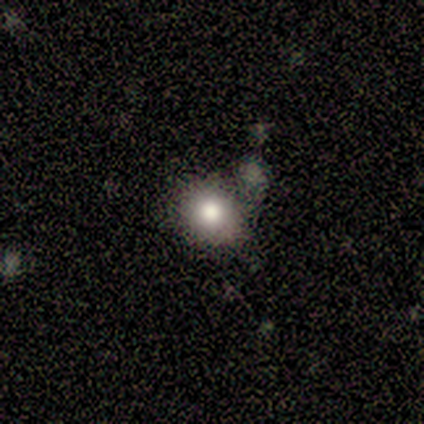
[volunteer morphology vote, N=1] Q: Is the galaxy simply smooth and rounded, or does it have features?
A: smooth — 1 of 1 (100%).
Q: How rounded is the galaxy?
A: round — 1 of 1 (100%).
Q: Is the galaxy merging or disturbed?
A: none — 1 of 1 (100%).